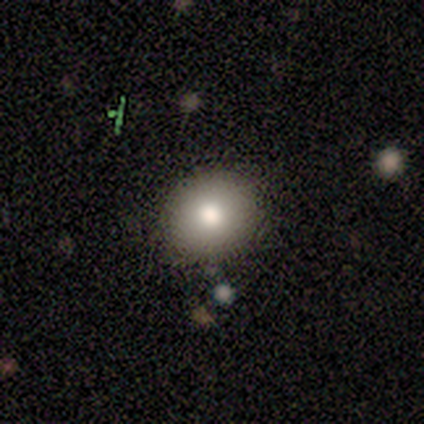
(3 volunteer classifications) Smooth or featured?
  - smooth: 67% *
  - featured or disk: 33%
  - star or artifact: 0%
How rounded?
  - round: 100% *
  - in between: 0%
  - cigar-shaped: 0%
Merging?
  - none: 100% *
  - minor disturbance: 0%
  - major disturbance: 0%
  - merger: 0%